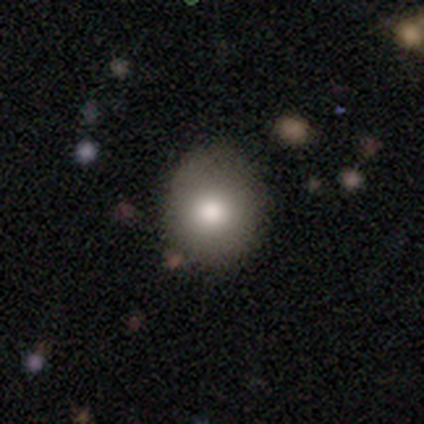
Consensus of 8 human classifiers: Overall: smooth (75%). How rounded: round (100%). Merging: none (57%; minor disturbance 43%).